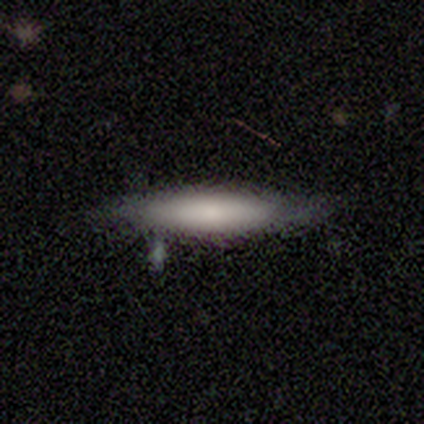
Morphology: type=smooth (100%); roundness=cigar-shaped (75%); merging=none (100%).